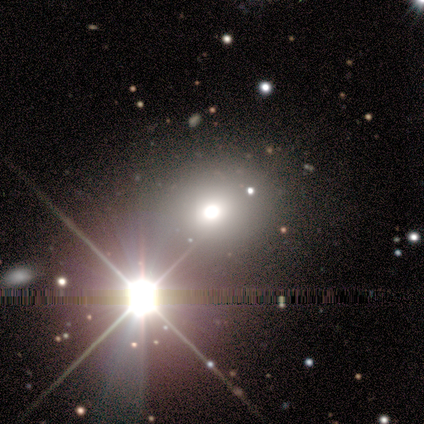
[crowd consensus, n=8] Morphology: type=star or artifact (62%).